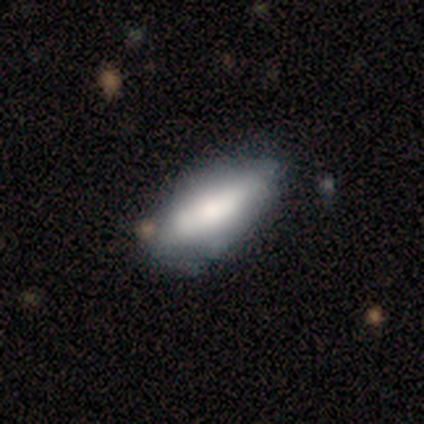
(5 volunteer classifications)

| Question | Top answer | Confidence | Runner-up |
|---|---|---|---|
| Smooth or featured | smooth | 80% | featured or disk (20%) |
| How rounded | in between | 50% | tied: cigar-shaped (50%) |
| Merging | none | 80% | major disturbance (20%) |